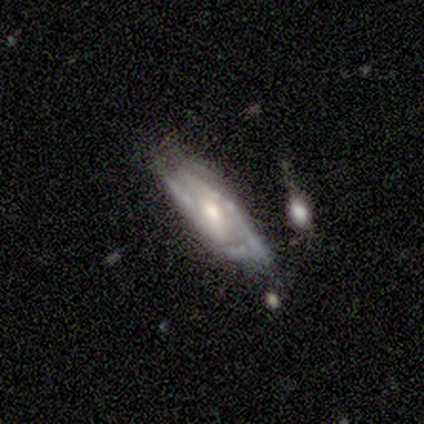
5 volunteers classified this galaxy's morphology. Smooth or featured? featured or disk (60%)
Edge-on disk? no (67%)
Bar? no (100%)
Spiral arms? no (100%)
Bulge size? moderate (100%)
Merging? none (25%, tied with minor disturbance, major disturbance and merger)